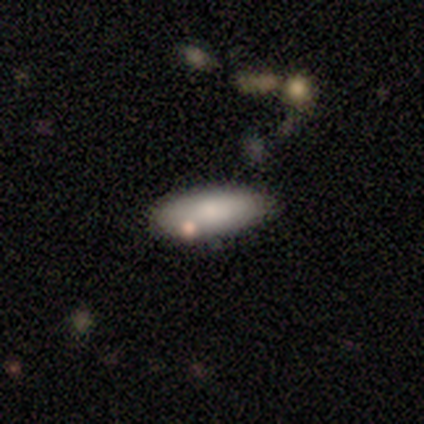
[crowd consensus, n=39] This is likely a smooth galaxy (74%). How rounded: possibly cigar-shaped (52%). Merging: clearly none (82%).